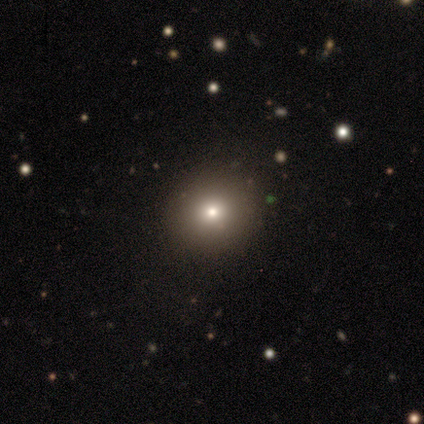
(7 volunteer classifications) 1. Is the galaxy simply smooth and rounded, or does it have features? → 71% smooth, 29% star or artifact, 0% featured or disk.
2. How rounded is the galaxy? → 100% round, 0% in between, 0% cigar-shaped.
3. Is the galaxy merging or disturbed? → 100% none, 0% minor disturbance, 0% major disturbance, 0% merger.